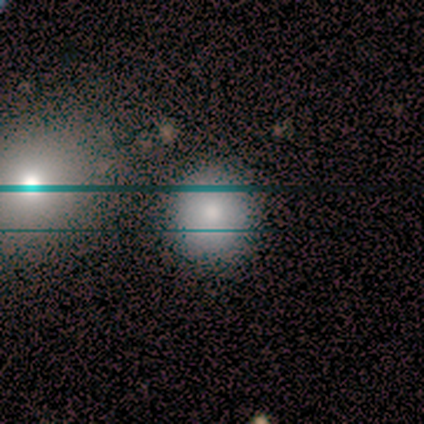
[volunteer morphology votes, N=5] smooth-or-featured: smooth: 100% | featured or disk: 0% | star or artifact: 0%
  how-rounded: round: 100% | in between: 0% | cigar-shaped: 0%
  merging: none: 100% | minor disturbance: 0% | major disturbance: 0% | merger: 0%